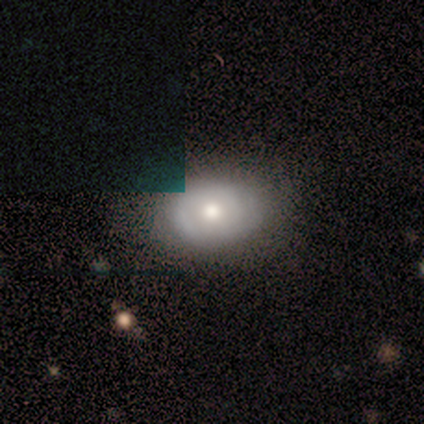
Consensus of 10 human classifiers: Smooth or featured? smooth (60%)
How rounded? in between (67%)
Merging? none (78%)